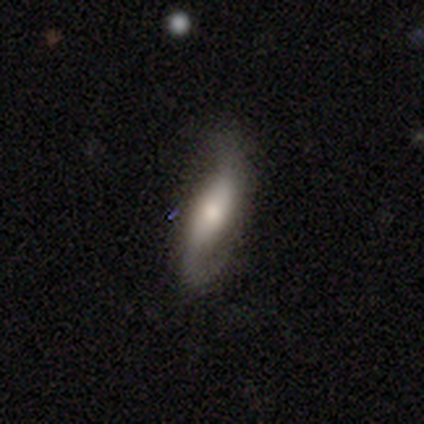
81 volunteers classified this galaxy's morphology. featured or disk 73%, smooth 27%, star or artifact 0%. Down the decision tree: edge-on disk — no (81%); bar — no (44%); spiral arms — yes (98%); spiral arm count — 2 (96%); spiral winding — loose (72%); bulge size — moderate (54%); merging — none (40%).